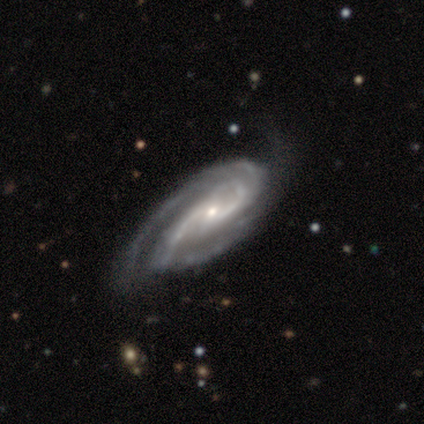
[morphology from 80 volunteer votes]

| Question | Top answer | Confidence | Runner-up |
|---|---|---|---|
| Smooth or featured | featured or disk | 98% | smooth (1%) |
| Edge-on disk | no | 99% | yes (1%) |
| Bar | weak | 45% | no (44%) |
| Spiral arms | yes | 99% | no (1%) |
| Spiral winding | tight | 47% | medium (41%) |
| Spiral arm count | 2 | 62% | 3 (26%) |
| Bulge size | small | 74% | moderate (22%) |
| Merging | none | 30% | major disturbance (11%) |